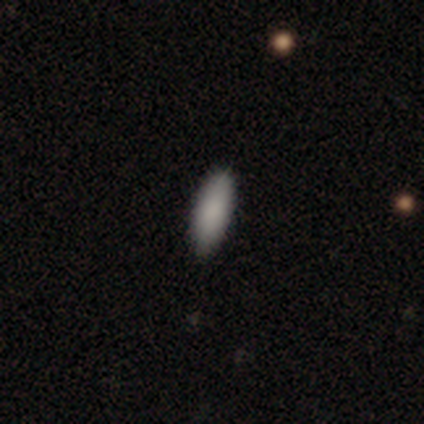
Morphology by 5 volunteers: smooth 100%, featured or disk 0%, star or artifact 0%. Down the decision tree: how rounded — cigar-shaped (60%); merging — none (100%).